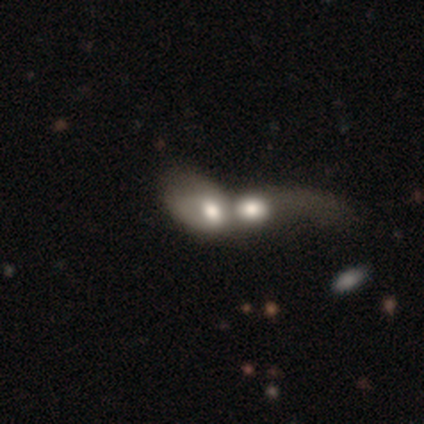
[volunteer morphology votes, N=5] Q: Smooth or featured?
A: smooth (40%); tied with: star or artifact (40%)
Q: How rounded?
A: in between (100%)
Q: Merging?
A: minor disturbance (33%); tied with: major disturbance (33%); merger (33%)